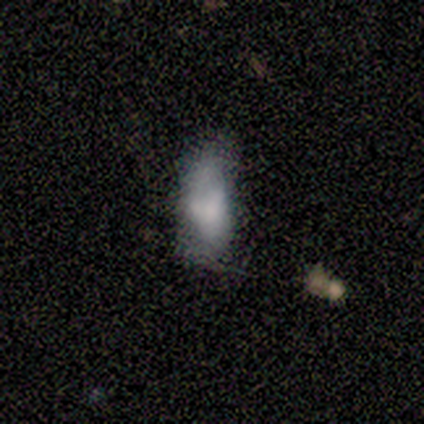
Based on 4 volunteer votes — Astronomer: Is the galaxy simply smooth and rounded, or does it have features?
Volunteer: smooth — 100%.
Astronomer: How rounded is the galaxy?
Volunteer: in between — 50%, tied with cigar-shaped at 50%.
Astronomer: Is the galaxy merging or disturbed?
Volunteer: none — 50%, tied with minor disturbance at 50%.